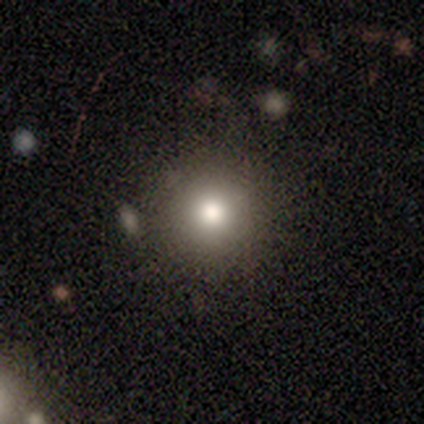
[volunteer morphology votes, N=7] This is marginally a smooth galaxy (43%). How rounded: clearly round (100%). Merging: likely none (60%).